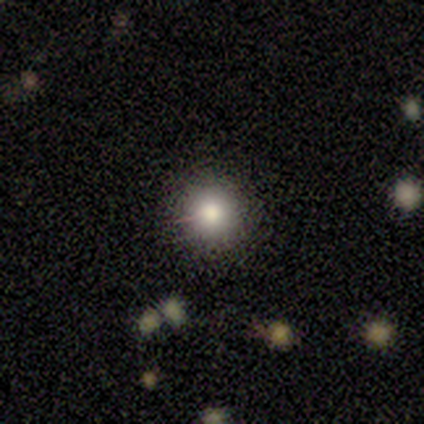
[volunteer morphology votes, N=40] A smooth galaxy with no disk features (75%) that is round (100%). Merging: none (91%).